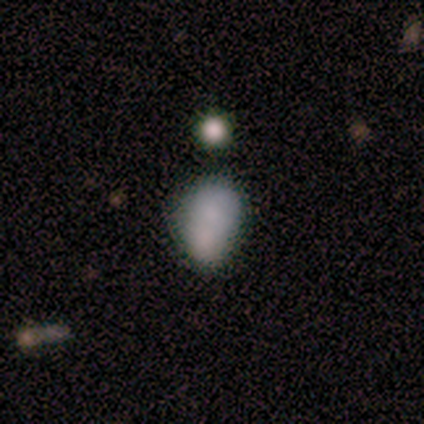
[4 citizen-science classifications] Smooth or featured: smooth — 75% (featured or disk — 25%)
How rounded: in between — 100%
Merging: none — 25% (tied with minor disturbance — 25%; major disturbance — 25%; merger — 25%)